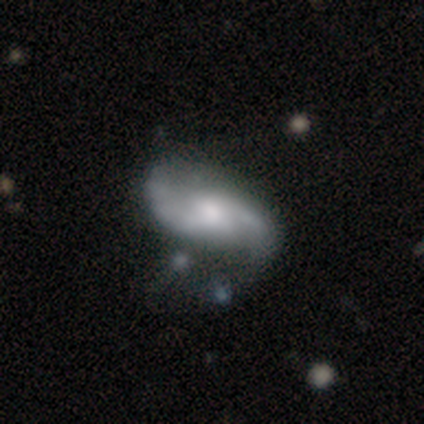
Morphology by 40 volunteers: This is clearly a featured or disk galaxy (85%). It is clearly not viewed edge-on (97%). Bar: possibly no (52%). Spiral arm pattern: clearly yes (97%). Spiral arm count: clearly 2 (94%). Spiral winding: likely loose (62%). Central bulge: possibly moderate (52%). Merging: marginally none (36%).